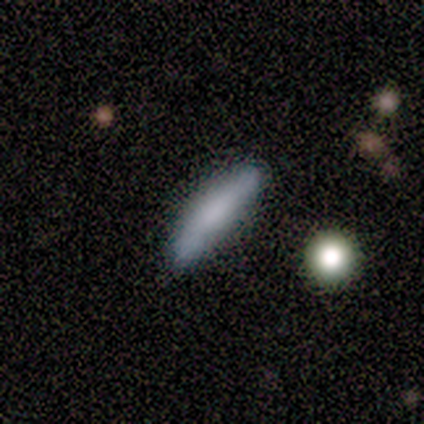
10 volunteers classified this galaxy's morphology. A smooth galaxy with no disk features (90%) that is cigar-shaped (67%). Merging: none (56%).